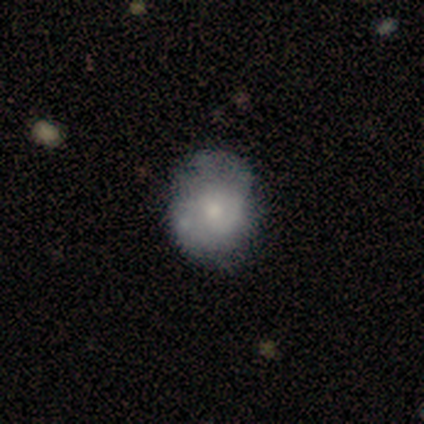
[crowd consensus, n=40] This appears to be a smooth galaxy with no disk features (52%) that is round (76%). Merging: none (43%).